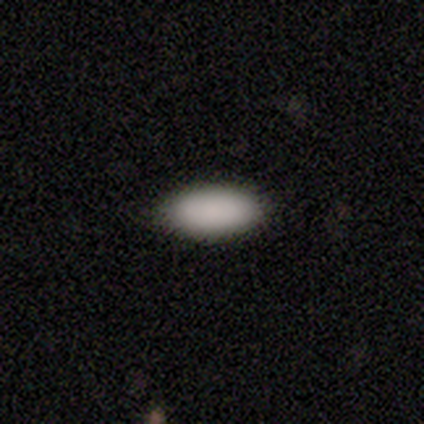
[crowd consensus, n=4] Smooth or featured? smooth (100%)
How rounded? in between (100%)
Merging? none (100%)